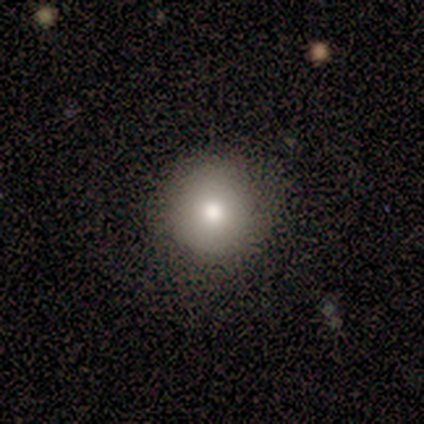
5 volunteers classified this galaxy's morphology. Smooth or featured?
  - smooth: 100% *
  - featured or disk: 0%
  - star or artifact: 0%
How rounded?
  - round: 100% *
  - in between: 0%
  - cigar-shaped: 0%
Merging?
  - none: 80% *
  - minor disturbance: 20%
  - major disturbance: 0%
  - merger: 0%